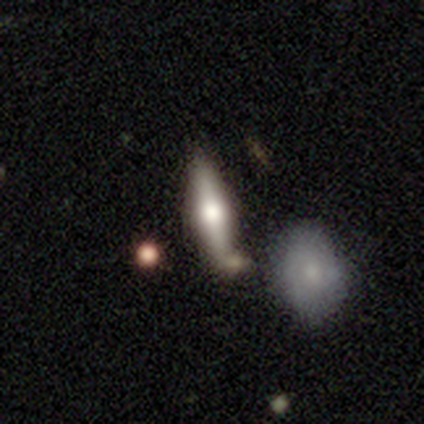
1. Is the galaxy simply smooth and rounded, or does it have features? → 40% smooth (tied), 40% featured or disk (tied), 20% star or artifact.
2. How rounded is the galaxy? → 100% cigar-shaped, 0% round, 0% in between.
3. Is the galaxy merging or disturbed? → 50% none, 25% minor disturbance, 25% merger, 0% major disturbance.